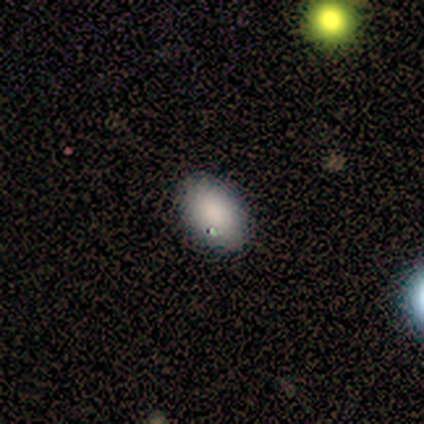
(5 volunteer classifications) Consensus on every question: smooth or featured — smooth (100%); how rounded — in between (100%); merging — none (100%).